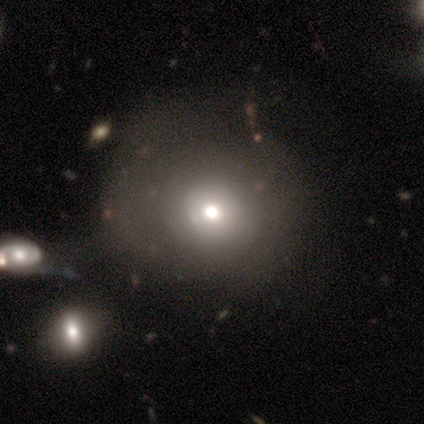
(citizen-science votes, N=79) Volunteers were most divided on "smooth or featured": smooth: 52%, featured or disk: 28%, star or artifact: 20%. More confident: how rounded — round (88%); merging — none (52%).